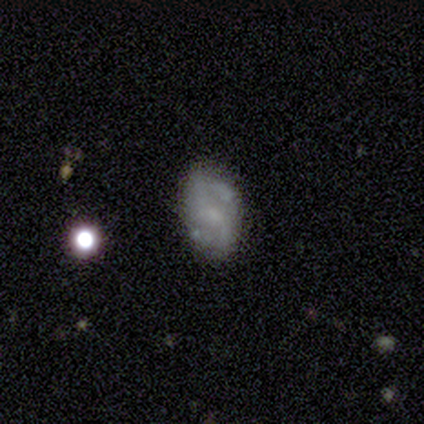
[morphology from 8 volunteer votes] Smooth or featured: featured or disk — 62% (smooth — 38%)
Edge-on disk: no — 100%
Bar: weak — 60% (no — 40%)
Spiral arms: yes — 100%
Spiral winding: medium — 60% (loose — 40%)
Spiral arm count: 2 — 100%
Bulge size: moderate — 40% (tied with none — 40%)
Merging: none — 62% (minor disturbance — 38%)